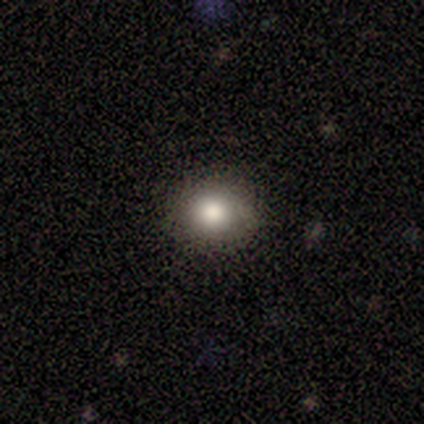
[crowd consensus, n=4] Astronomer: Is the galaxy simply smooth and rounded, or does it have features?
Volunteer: smooth — 50%.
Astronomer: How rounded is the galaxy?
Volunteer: round — 50%, tied with in between at 50%.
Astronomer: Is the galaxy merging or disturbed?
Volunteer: none — 100%.